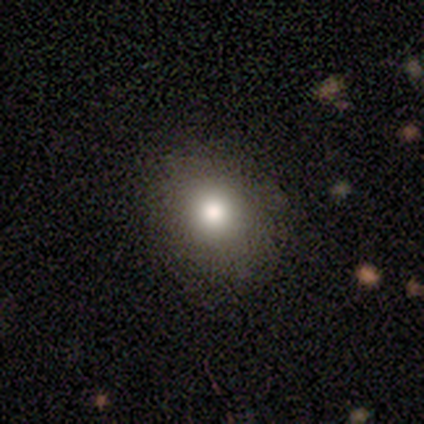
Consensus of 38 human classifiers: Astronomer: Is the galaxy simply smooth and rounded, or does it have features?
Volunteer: smooth — 87%.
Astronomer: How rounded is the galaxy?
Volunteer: round — 70%.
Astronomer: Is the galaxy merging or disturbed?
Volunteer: none — 69%.